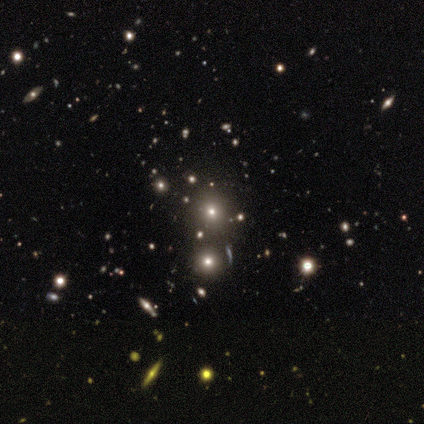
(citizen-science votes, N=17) Overall: smooth (59%; star or artifact 35%). How rounded: round (100%). Merging: none (82%).